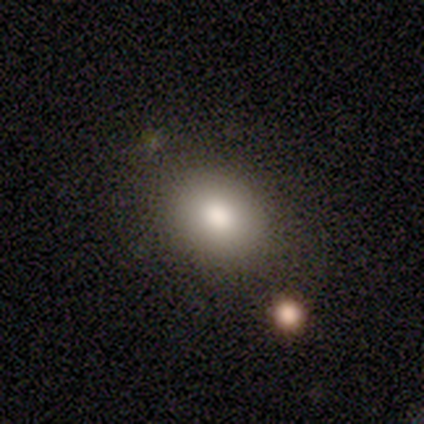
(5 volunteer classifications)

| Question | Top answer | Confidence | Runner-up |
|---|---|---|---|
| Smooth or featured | smooth | 80% | featured or disk (20%) |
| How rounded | in between | 75% | round (25%) |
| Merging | none | 60% | minor disturbance (20%) |